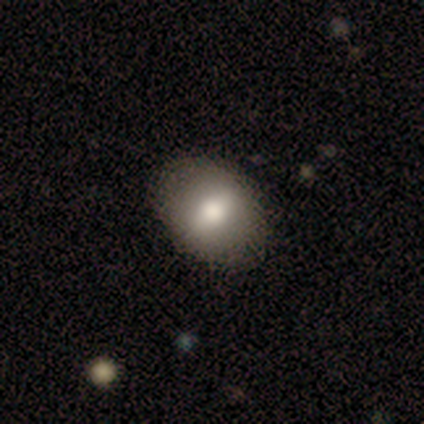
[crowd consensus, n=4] Morphology: type=smooth (100%); roundness=in between (75%); merging=none (75%).